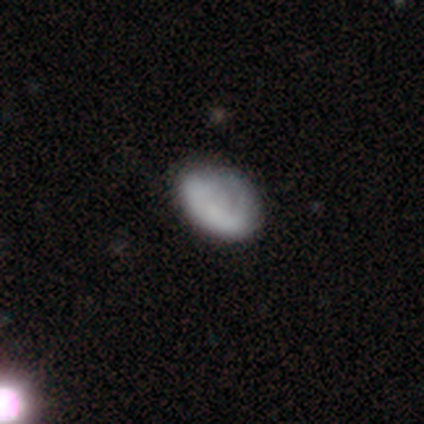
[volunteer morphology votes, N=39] This appears to be a smooth galaxy with no disk features (49%) that is in between round and cigar-shaped (89%). Merging: none (47%).